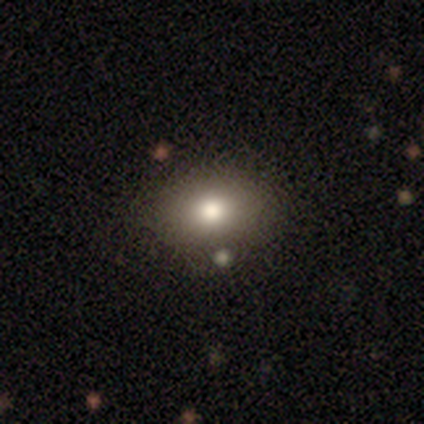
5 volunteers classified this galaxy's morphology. Smooth or featured?
  - smooth: 60% *
  - featured or disk: 20%
  - star or artifact: 20%
How rounded?
  - round: 67% *
  - in between: 33%
  - cigar-shaped: 0%
Merging?
  - none: 100% *
  - minor disturbance: 0%
  - major disturbance: 0%
  - merger: 0%